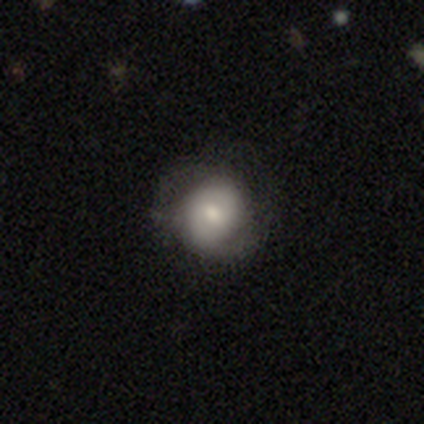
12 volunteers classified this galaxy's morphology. Volunteers were most divided on "smooth or featured": smooth: 58%, featured or disk: 33%, star or artifact: 8%. More confident: how rounded — round (86%); merging — minor disturbance (64%).